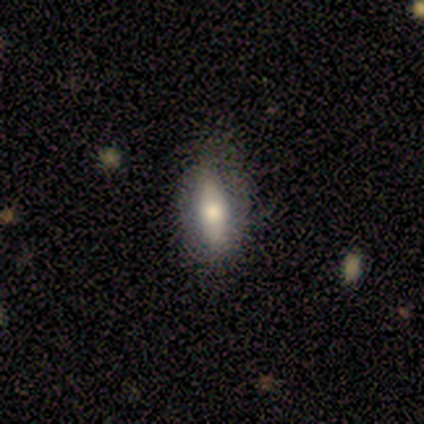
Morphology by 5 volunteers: smooth 60%, featured or disk 40%, star or artifact 0%. Down the decision tree: how rounded — cigar-shaped (100%); merging — none (100%).